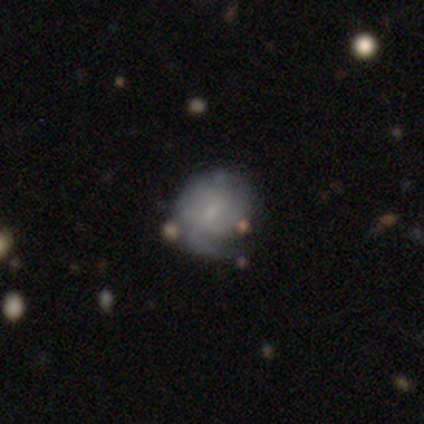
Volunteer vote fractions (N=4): Overall: smooth (50%, tied with featured or disk). How rounded: round (100%). Merging: none (50%; minor disturbance 25%).